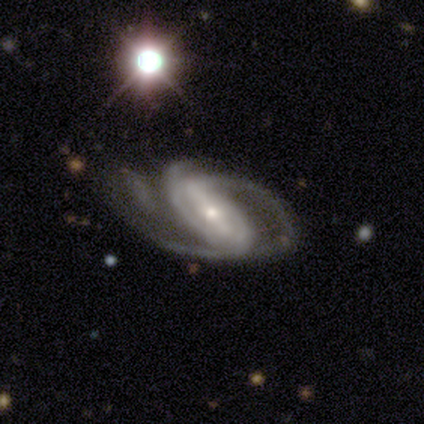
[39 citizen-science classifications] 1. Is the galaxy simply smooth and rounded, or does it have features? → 97% featured or disk, 3% star or artifact, 0% smooth.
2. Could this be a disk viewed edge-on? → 92% no, 8% yes.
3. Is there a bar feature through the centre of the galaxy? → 63% strong, 29% weak, 9% no.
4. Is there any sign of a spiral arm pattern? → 91% yes, 9% no.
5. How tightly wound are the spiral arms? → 59% medium, 25% loose, 16% tight.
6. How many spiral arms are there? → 44% 3, 28% 2, 12% can't tell, 6% 1, 6% more than 4, 3% 4.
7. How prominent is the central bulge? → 69% small, 23% moderate, 9% large, 0% dominant, 0% none.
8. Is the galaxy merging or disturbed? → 55% none, 24% major disturbance, 18% minor disturbance, 3% merger.